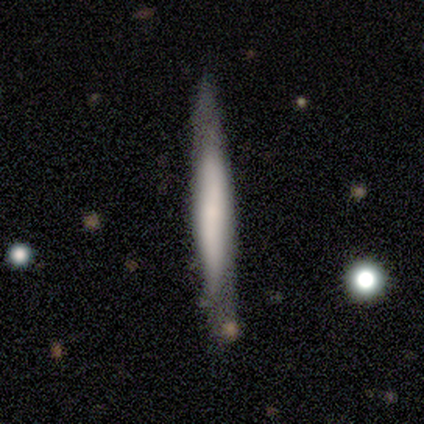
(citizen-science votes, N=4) A smooth galaxy with no disk features (50%, tied with featured or disk) that is cigar-shaped (100%).

Vote fractions:
- Smooth or featured? smooth: 50% (tied) / featured or disk: 50% (tied) / star or artifact: 0%
- How rounded? cigar-shaped: 100% / round: 0% / in between: 0%
- Merging? none: 75% / minor disturbance: 25% / major disturbance: 0% / merger: 0%